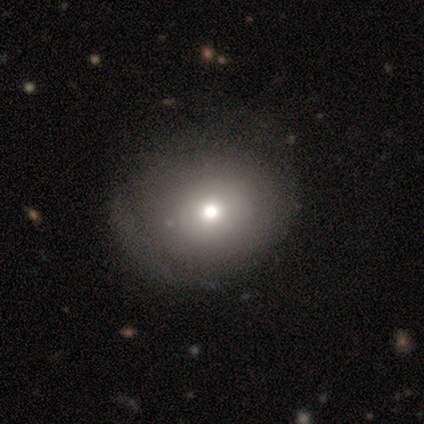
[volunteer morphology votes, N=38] A smooth galaxy with no disk features (71%) that is round (67%). Merging: none (35%).